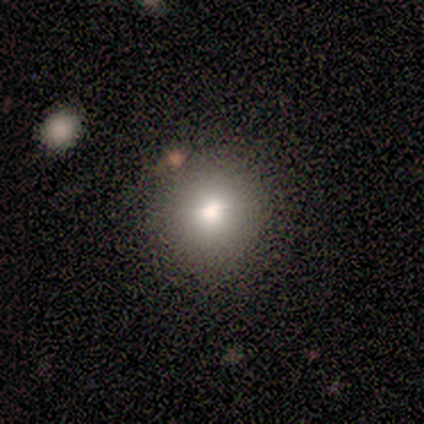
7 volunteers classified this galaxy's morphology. This appears to be a smooth galaxy with no disk features (71%) that is round (100%). Merging: none (100%).